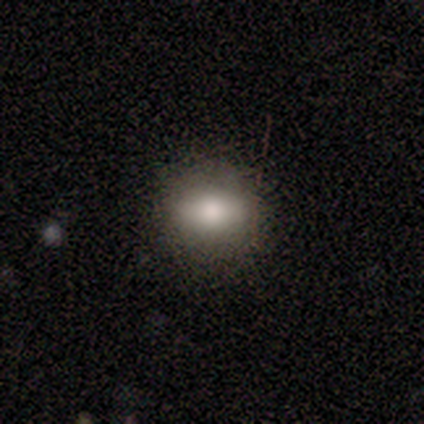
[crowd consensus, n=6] smooth 67%, featured or disk 33%, star or artifact 0%. Down the decision tree: how rounded — in between (75%); merging — none (100%).